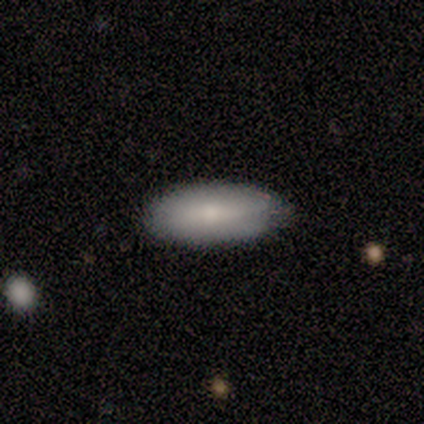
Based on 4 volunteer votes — smooth_or_featured: smooth (p=1.00)
how_rounded: in between (p=1.00)
merging: none (p=1.00)